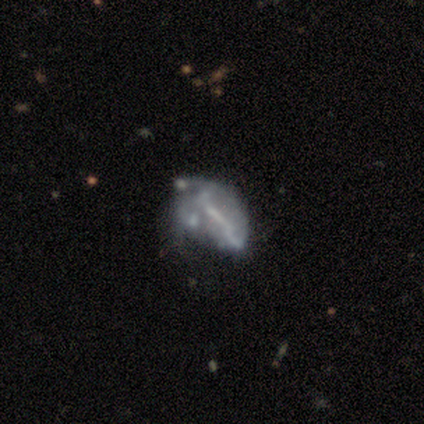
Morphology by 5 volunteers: Smooth or featured? smooth (60%)
How rounded? in between (100%)
Merging? minor disturbance (40%, tied with major disturbance)